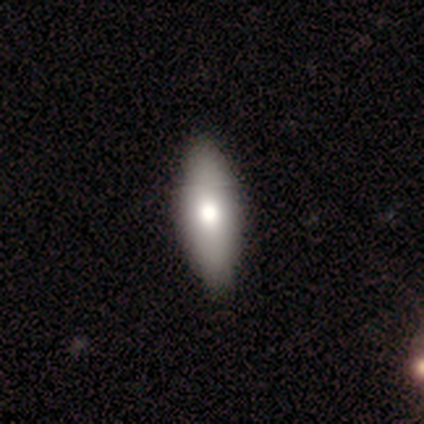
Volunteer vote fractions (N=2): This appears to be a smooth galaxy with no disk features (100%) that is in between round and cigar-shaped (100%). Merging: none (100%).